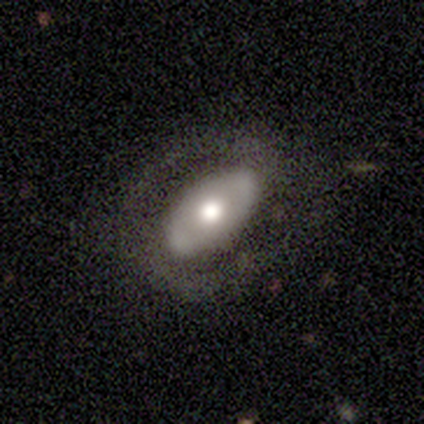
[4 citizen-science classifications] This is possibly a smooth galaxy (50%, tied with featured or disk). How rounded: clearly in between (100%). Merging: likely none (75%).